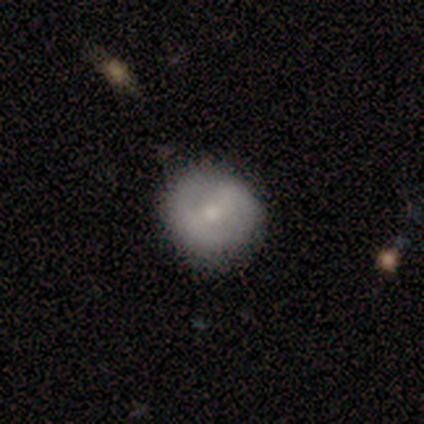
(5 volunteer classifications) A smooth galaxy with no disk features (60%) that is round (100%). Merging: none (80%).